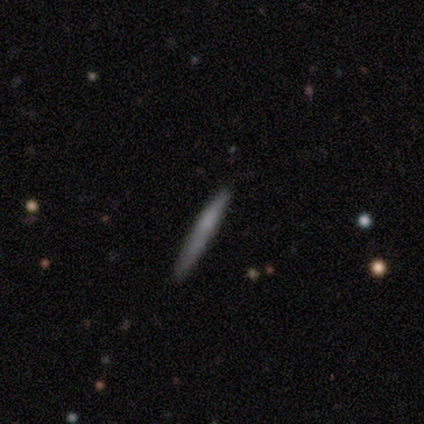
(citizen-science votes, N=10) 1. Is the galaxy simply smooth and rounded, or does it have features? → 50% smooth (tied), 50% featured or disk (tied), 0% star or artifact.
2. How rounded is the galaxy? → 100% cigar-shaped, 0% round, 0% in between.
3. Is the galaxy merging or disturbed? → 90% none, 10% merger, 0% minor disturbance, 0% major disturbance.